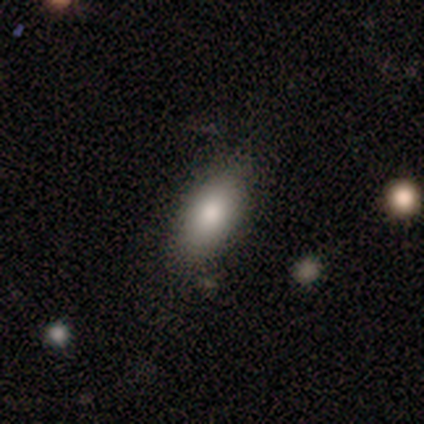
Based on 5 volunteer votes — Smooth or featured?
  - smooth: 100% *
  - featured or disk: 0%
  - star or artifact: 0%
How rounded?
  - in between: 100% *
  - round: 0%
  - cigar-shaped: 0%
Merging?
  - none: 100% *
  - minor disturbance: 0%
  - major disturbance: 0%
  - merger: 0%